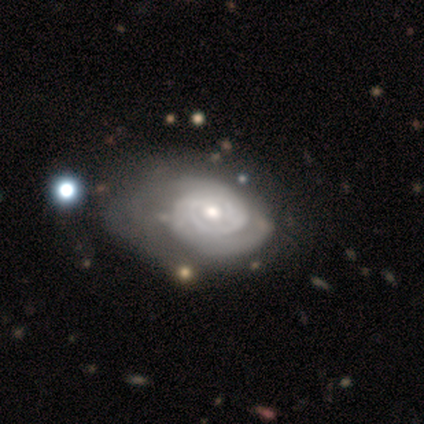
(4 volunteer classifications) Smooth or featured? featured or disk (75%)
Edge-on disk? no (100%)
Bar? no (100%)
Spiral arms? yes (67%)
Spiral winding? tight (50%, tied with medium)
Spiral arm count? 2 (100%)
Bulge size? moderate (67%)
Merging? major disturbance (67%)